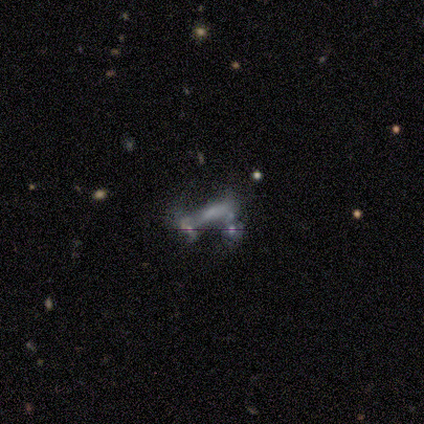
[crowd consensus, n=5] Smooth or featured? 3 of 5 (60%) said featured or disk. Edge-on disk? 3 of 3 (100%) said no. Bar? 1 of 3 (33%, tied with weak and no) said strong. Spiral arms? 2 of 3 (67%) said no. Bulge size? 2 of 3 (67%) said none. Merging? 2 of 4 (50%) said merger.